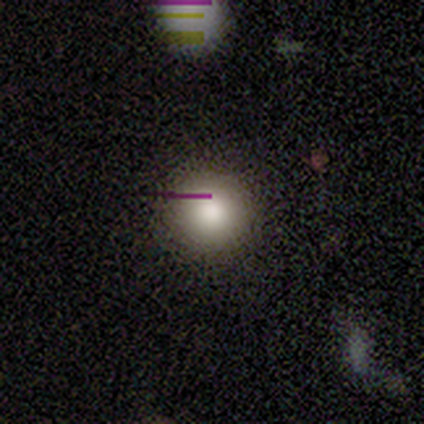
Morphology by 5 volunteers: This appears to be a smooth galaxy with no disk features (60%) that is round (100%). Merging: none (100%).